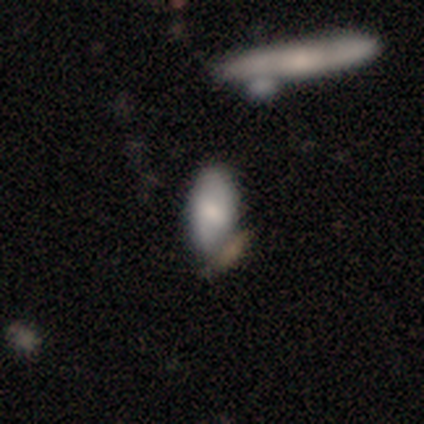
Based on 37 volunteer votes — Smooth or featured?
  - smooth: 62% *
  - featured or disk: 27%
  - star or artifact: 11%
How rounded?
  - in between: 83% *
  - cigar-shaped: 13%
  - round: 4%
Merging?
  - none: 73% *
  - minor disturbance: 12%
  - merger: 9%
  - major disturbance: 6%